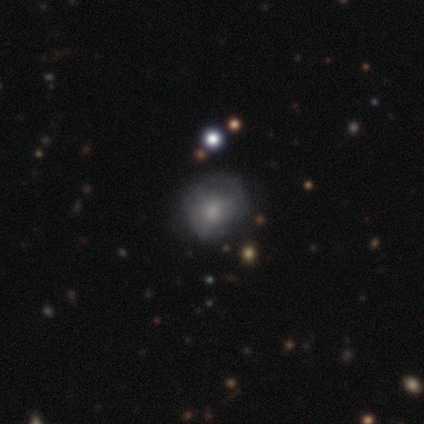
smooth-or-featured: smooth: 53% | featured or disk: 32% | star or artifact: 16%
  how-rounded: round: 70% | in between: 25% | cigar-shaped: 5%
  merging: none: 66% | minor disturbance: 31% | major disturbance: 3% | merger: 0%